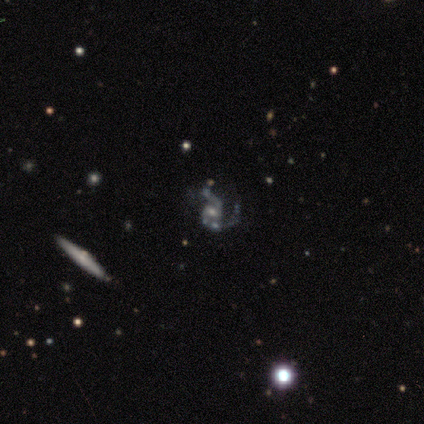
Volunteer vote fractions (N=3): Volunteers were most divided on "bar": weak: 67%, no: 33%, strong: 0%. More confident: smooth or featured — featured or disk (100%); edge-on disk — no (100%); spiral arms — yes (100%); spiral arm count — 2 (100%); spiral winding — medium (67%); bulge size — small (67%); merging — none (67%).